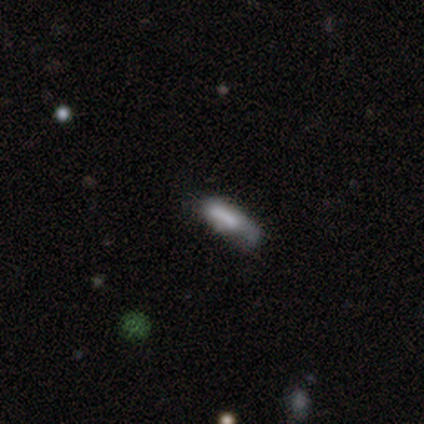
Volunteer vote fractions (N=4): This appears to be a smooth galaxy with no disk features (100%) that is cigar-shaped (75%). Merging: minor disturbance (50%).